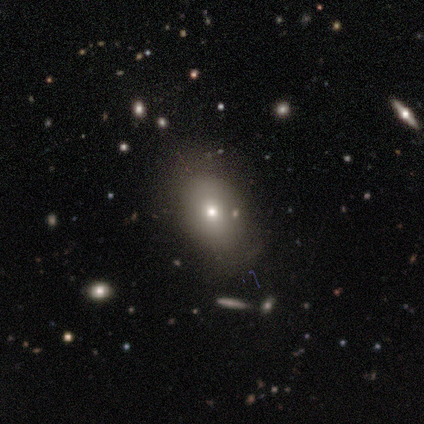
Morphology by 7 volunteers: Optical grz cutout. It shows a smooth galaxy with no disk features (86%) that is in between round and cigar-shaped (67%). Merging: none (86%).